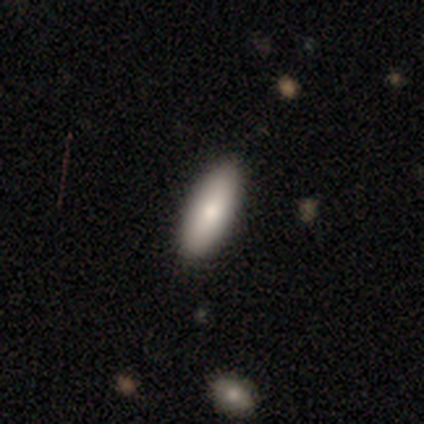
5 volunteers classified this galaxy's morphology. Smooth or featured?
  - smooth: 60% *
  - featured or disk: 40%
  - star or artifact: 0%
How rounded?
  - in between: 67% *
  - cigar-shaped: 33%
  - round: 0%
Merging?
  - none: 100% *
  - minor disturbance: 0%
  - major disturbance: 0%
  - merger: 0%